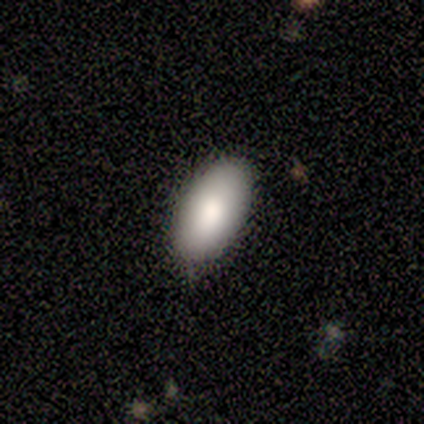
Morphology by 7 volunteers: Overall: smooth (71%). How rounded: in between (80%). Merging: none (83%).